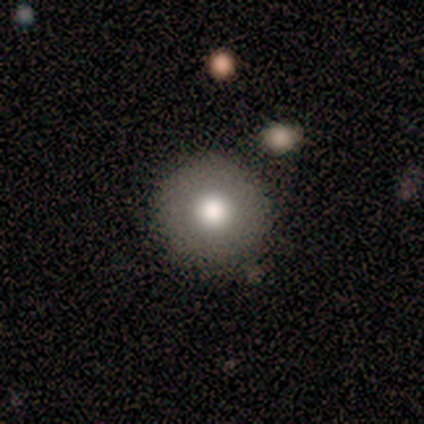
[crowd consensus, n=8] smooth-or-featured: smooth: 62% | featured or disk: 38% | star or artifact: 0%
  how-rounded: round: 100% | in between: 0% | cigar-shaped: 0%
  merging: none: 100% | minor disturbance: 0% | major disturbance: 0% | merger: 0%